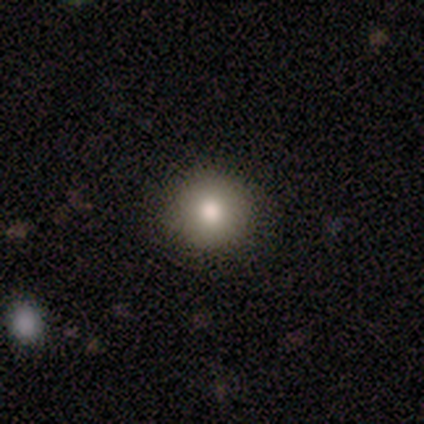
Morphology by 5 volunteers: Smooth or featured? 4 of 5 (80%) said smooth. How rounded? 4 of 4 (100%) said round. Merging? 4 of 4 (100%) said none.